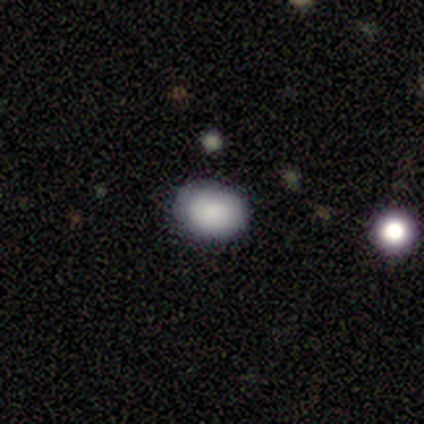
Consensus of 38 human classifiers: smooth 84%, featured or disk 8%, star or artifact 8%. Down the decision tree: how rounded — in between (72%); merging — none (86%).